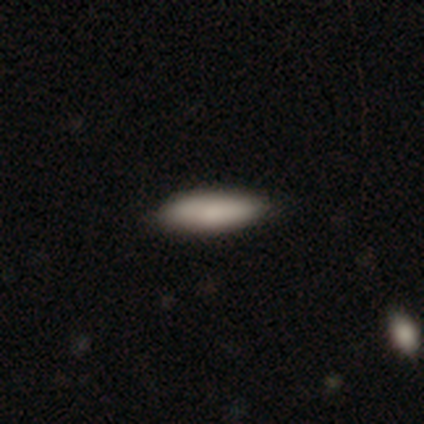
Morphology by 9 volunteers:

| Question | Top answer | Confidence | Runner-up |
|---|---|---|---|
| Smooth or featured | smooth | 78% | featured or disk (11%) |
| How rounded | cigar-shaped | 71% | in between (29%) |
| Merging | none | 88% | minor disturbance (12%) |